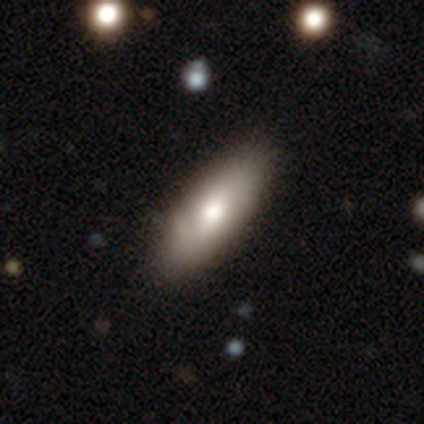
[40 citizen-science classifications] Smooth or featured? 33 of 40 (82%) said smooth. How rounded? 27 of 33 (82%) said in between. Merging? 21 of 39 (54%) said none.